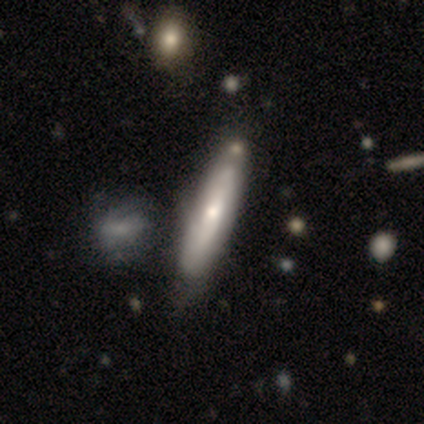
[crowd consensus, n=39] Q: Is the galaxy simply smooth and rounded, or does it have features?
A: smooth — 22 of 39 (56%).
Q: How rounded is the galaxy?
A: cigar-shaped — 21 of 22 (95%).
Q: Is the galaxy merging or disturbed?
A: none — 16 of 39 (41%).